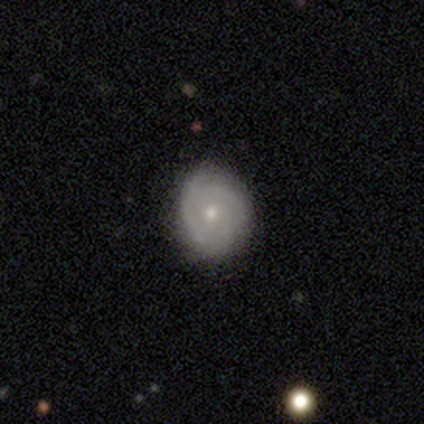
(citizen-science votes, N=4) Smooth or featured: featured or disk — 100%
Edge-on disk: no — 100%
Bar: no — 75% (weak — 25%)
Spiral arms: yes — 75% (no — 25%)
Spiral winding: tight — 67% (medium — 33%)
Spiral arm count: can't tell — 67% (3 — 33%)
Bulge size: small — 75% (none — 25%)
Merging: none — 75% (minor disturbance — 25%)